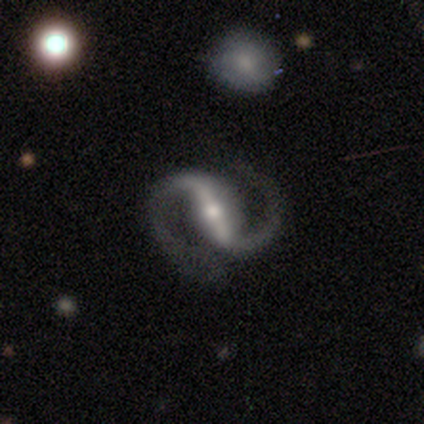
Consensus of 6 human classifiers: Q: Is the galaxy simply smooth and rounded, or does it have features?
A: featured or disk — 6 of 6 (100%).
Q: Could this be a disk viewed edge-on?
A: no — 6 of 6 (100%).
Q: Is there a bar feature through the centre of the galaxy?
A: strong — 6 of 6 (100%).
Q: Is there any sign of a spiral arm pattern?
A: yes — 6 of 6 (100%).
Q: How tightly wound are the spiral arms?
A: medium — 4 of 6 (67%).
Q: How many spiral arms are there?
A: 2 — 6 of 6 (100%).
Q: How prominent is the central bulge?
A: moderate — 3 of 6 (50%, tied with small).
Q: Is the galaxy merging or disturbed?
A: none — 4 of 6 (67%).